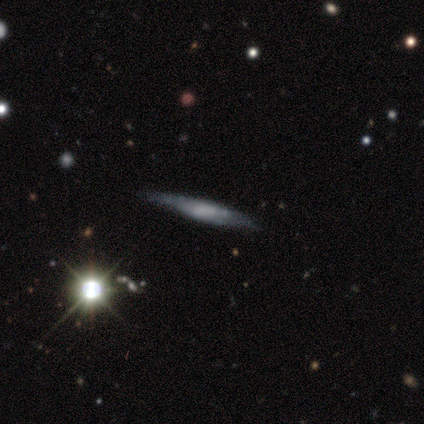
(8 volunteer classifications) This appears to be a smooth galaxy with no disk features (50%, tied with featured or disk) that is cigar-shaped (100%). Merging: none (100%).